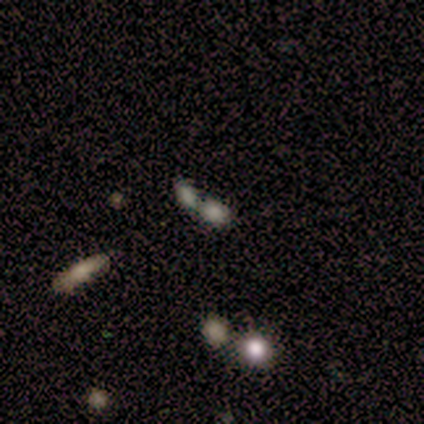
Smooth or featured: star or artifact — 60% (smooth — 40%)